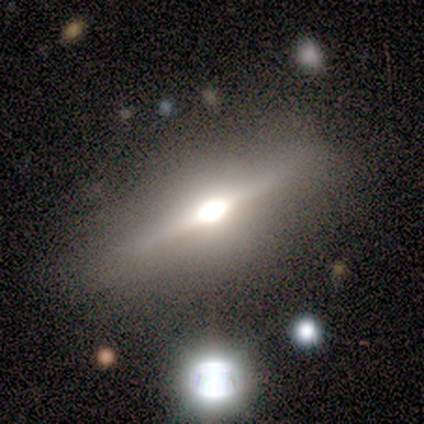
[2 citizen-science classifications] Consensus on every question: smooth or featured — featured or disk (100%); edge-on disk — yes (100%); edge-on bulge — rounded (100%); merging — none (100%).